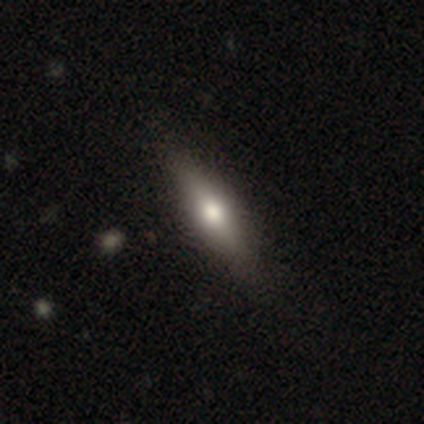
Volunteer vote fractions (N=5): A smooth galaxy with no disk features (80%) that is in between round and cigar-shaped (50%, tied with cigar-shaped). Merging: none (60%).